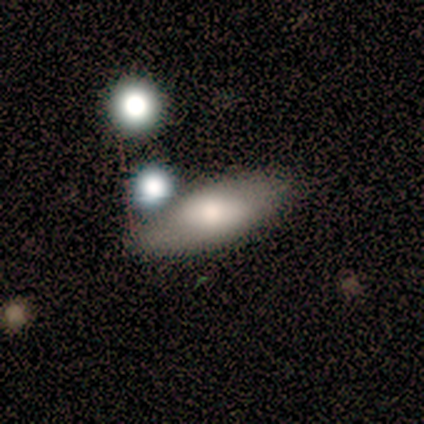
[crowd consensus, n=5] This appears to be a featured or disk galaxy (60%) with no bar (67%), no spiral arms (100%) and a moderate central bulge (100%). Merging: none (80%).